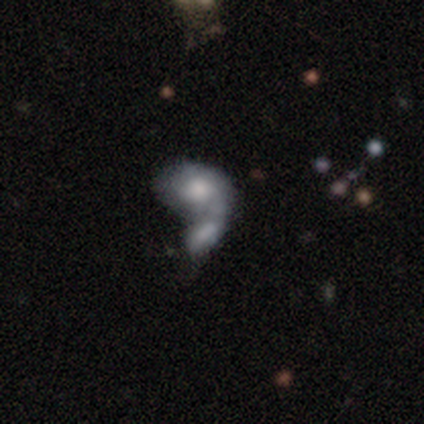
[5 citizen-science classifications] This appears to be a smooth galaxy with no disk features (80%) that is in between round and cigar-shaped (50%). Merging: merger (100%).